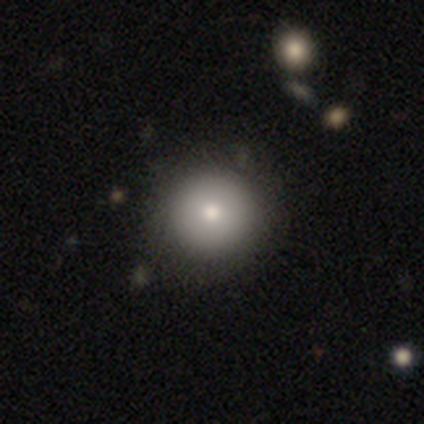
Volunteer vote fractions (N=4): A smooth galaxy with no disk features (75%) that is round (100%). Merging: none (100%).